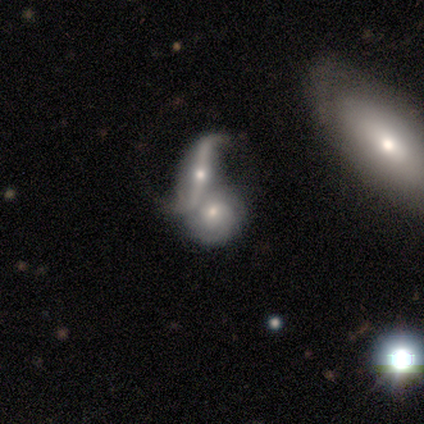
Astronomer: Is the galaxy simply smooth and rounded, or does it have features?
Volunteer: featured or disk — 60% (runner-up: smooth, 40%).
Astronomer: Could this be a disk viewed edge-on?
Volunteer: yes — 67%.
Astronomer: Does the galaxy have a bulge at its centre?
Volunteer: rounded — 100%.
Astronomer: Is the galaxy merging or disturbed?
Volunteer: none — 60%.